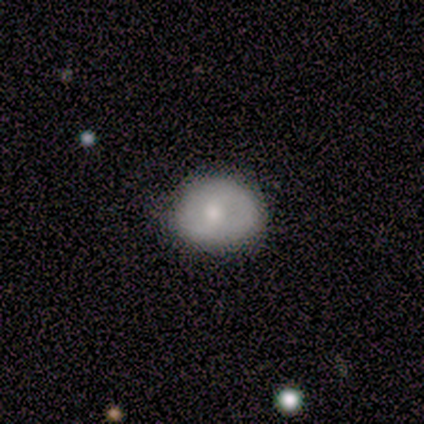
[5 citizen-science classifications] A smooth galaxy with no disk features (60%) that is in between round and cigar-shaped (67%).

Vote fractions:
- Smooth or featured? smooth: 60% / featured or disk: 20% / star or artifact: 20%
- How rounded? in between: 67% / round: 33% / cigar-shaped: 0%
- Merging? none: 75% / minor disturbance: 25% / major disturbance: 0% / merger: 0%